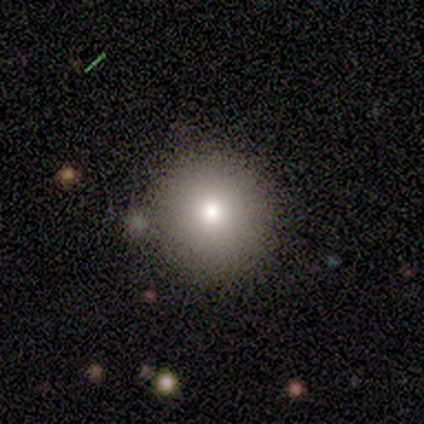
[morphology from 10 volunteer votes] Q: Smooth or featured?
A: smooth (100%)
Q: How rounded?
A: round (90%); runner-up: in between (10%)
Q: Merging?
A: none (70%); runner-up: minor disturbance (20%)